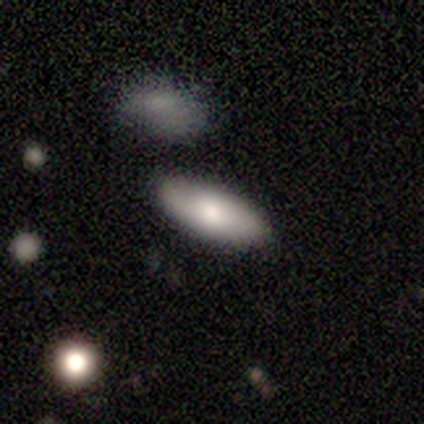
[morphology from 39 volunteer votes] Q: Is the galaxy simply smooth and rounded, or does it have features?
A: smooth — 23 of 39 (59%).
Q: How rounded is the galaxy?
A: in between — 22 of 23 (96%).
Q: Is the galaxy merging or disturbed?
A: none — 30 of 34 (88%).